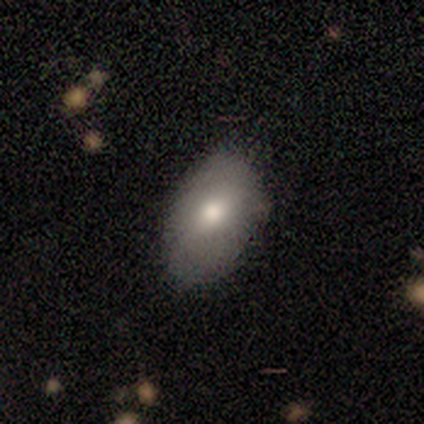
Smooth or featured: smooth — 83% (featured or disk — 17%)
How rounded: in between — 100%
Merging: none — 100%